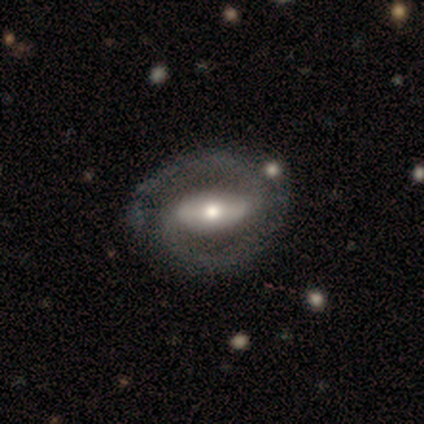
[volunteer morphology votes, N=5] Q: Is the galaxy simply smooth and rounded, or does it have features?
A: featured or disk — 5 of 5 (100%).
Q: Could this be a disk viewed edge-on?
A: no — 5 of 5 (100%).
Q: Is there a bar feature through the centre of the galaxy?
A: strong — 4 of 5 (80%).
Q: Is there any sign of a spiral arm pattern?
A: yes — 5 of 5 (100%).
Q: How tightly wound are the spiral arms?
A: medium — 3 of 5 (60%).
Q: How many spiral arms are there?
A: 2 — 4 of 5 (80%).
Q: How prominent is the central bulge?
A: moderate — 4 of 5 (80%).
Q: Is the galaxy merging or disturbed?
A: none — 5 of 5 (100%).